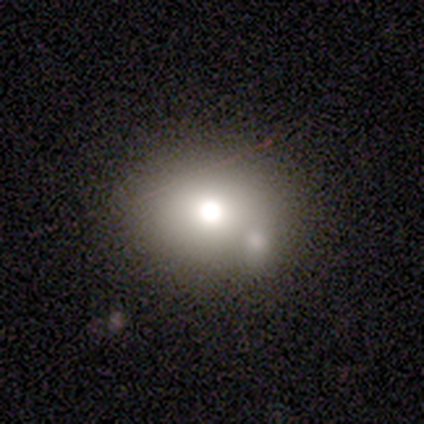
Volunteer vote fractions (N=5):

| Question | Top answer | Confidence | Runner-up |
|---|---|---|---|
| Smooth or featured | smooth | 60% | featured or disk (40%) |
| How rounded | in between | 67% | round (33%) |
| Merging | merger | 60% | none (20%) |